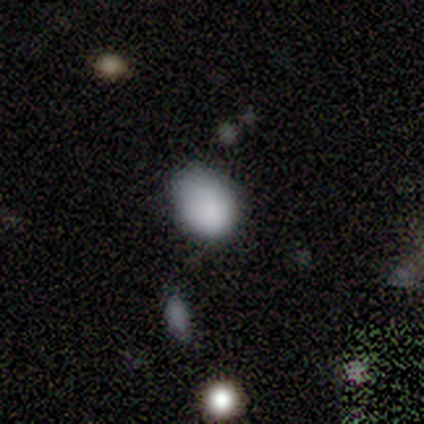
Smooth or featured? smooth (100%)
How rounded? in between (60%)
Merging? none (80%)